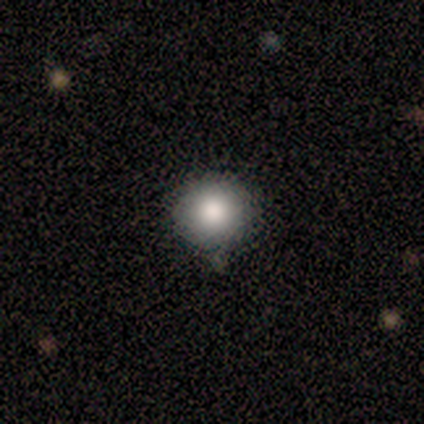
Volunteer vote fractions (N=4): This is clearly a smooth galaxy (100%). How rounded: clearly round (100%). Merging: likely minor disturbance (75%).